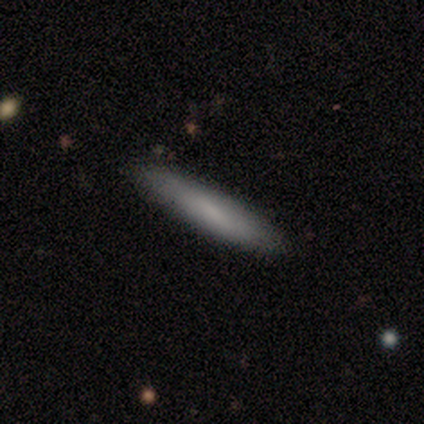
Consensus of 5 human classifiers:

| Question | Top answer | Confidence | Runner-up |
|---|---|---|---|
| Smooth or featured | featured or disk | 60% | smooth (40%) |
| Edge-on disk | yes | 100% | — |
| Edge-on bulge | none | 67% | rounded (33%) |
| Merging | none | 80% | minor disturbance (20%) |